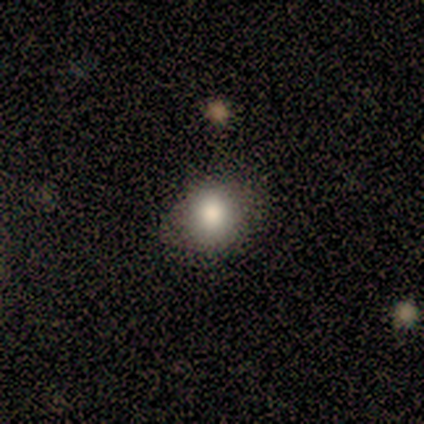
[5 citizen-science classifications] Morphology: type=smooth (100%); roundness=round (60%); merging=none (80%).